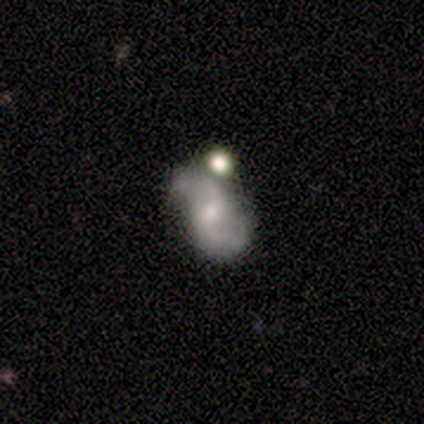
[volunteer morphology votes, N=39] smooth_or_featured: featured or disk (p=0.77) [alt: smooth p=0.18]
disk_edge_on: no (p=1.00)
bar: weak (p=0.60) [alt: no p=0.40]
has_spiral_arms: yes (p=0.87) [alt: no p=0.13]
spiral_winding: medium (p=0.50) [alt: loose p=0.46]
spiral_arm_count: 2 (p=0.92) [alt: 1 p=0.04]
bulge_size: moderate (p=0.43) [alt: small p=0.40]
merging: none (p=0.46) [alt: minor disturbance p=0.38]